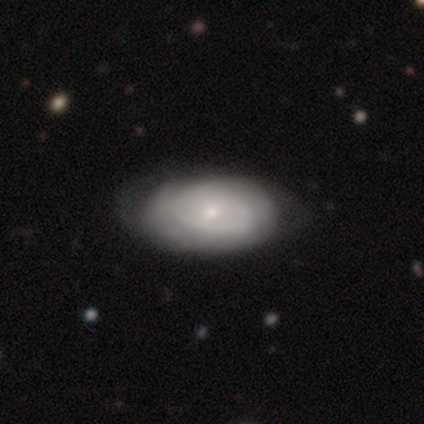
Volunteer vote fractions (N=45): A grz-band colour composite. It shows a smooth galaxy with no disk features (58%) that is in between round and cigar-shaped (96%). Merging: none (73%).